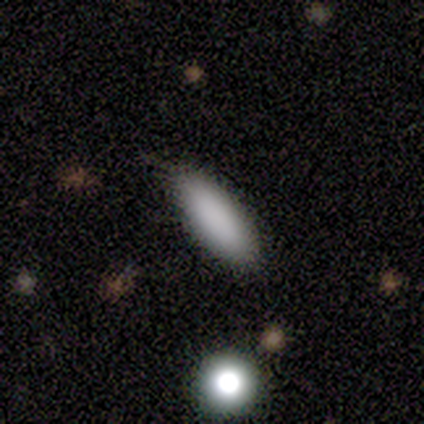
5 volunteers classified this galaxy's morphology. type=smooth (100%); roundness=in between (60%); merging=none (80%).